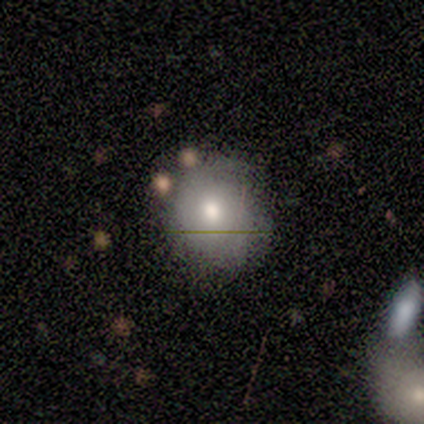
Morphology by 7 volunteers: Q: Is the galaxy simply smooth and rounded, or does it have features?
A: smooth — 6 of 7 (86%).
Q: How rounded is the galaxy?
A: round — 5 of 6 (83%).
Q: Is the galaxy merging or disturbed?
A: none — 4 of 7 (57%).